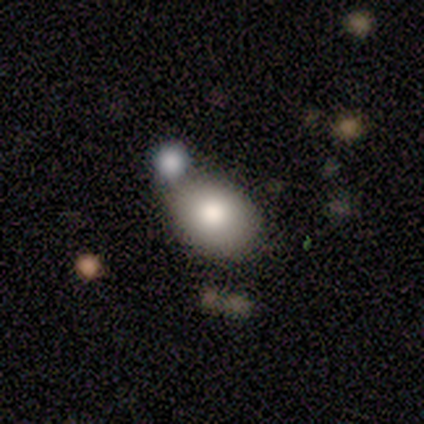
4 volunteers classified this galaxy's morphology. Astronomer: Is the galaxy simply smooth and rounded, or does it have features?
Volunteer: smooth — 100%.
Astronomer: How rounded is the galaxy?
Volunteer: in between — 75%.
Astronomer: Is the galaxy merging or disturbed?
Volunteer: none — 75%.